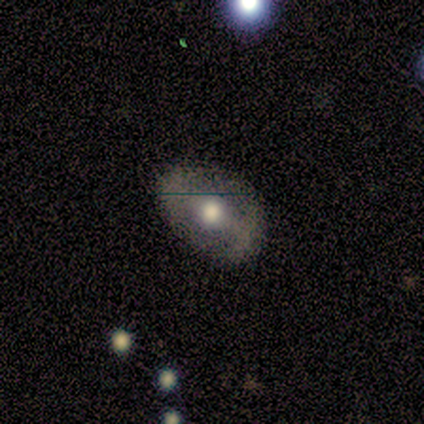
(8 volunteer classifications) Q: Smooth or featured?
A: featured or disk (62%); runner-up: smooth (25%)
Q: Edge-on disk?
A: no (100%)
Q: Bar?
A: strong (40%); tied with: weak (40%)
Q: Spiral arms?
A: no (80%); runner-up: yes (20%)
Q: Bulge size?
A: moderate (100%)
Q: Merging?
A: none (100%)